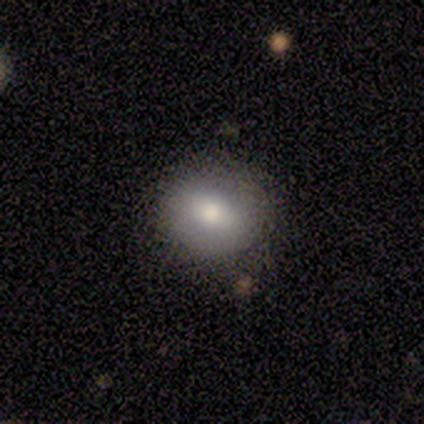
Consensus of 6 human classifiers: Overall: featured or disk (67%; smooth 33%). Edge-on disk: no (100%). Bar: no (75%). Spiral arms: no (100%). Bulge size: moderate (50%, tied with small). Merging: none (67%).